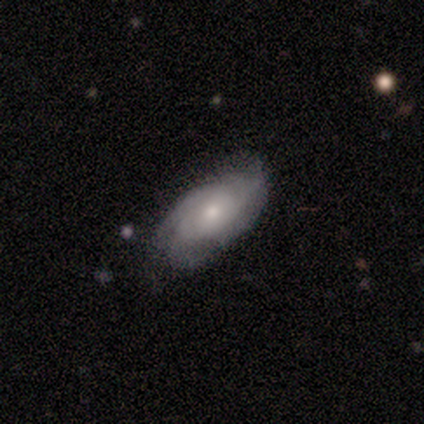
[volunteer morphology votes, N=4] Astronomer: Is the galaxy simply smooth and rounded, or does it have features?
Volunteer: smooth — 50%, tied with featured or disk at 50%.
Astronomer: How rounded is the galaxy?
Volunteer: in between — 50%, tied with cigar-shaped at 50%.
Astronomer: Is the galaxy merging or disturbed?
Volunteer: none — 75%.